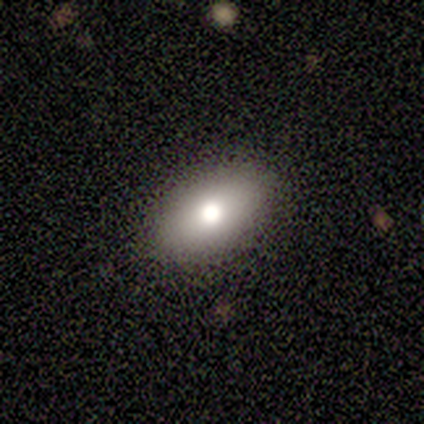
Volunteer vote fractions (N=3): smooth 67%, star or artifact 33%, featured or disk 0%. Down the decision tree: how rounded — in between (100%); merging — none (100%).